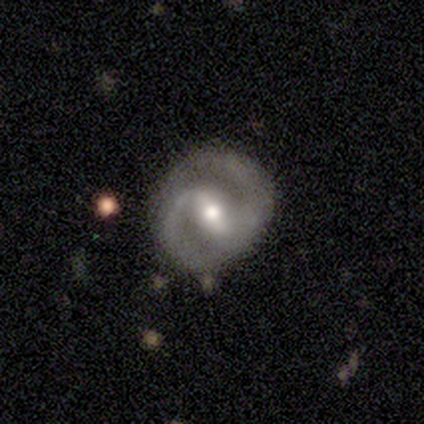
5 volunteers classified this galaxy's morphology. A featured or disk galaxy (80%) with a strong bar (50%, tied with weak), 2 (100%) medium (75%) spiral arms (100%) and a moderate central bulge (75%). Merging: none (80%).